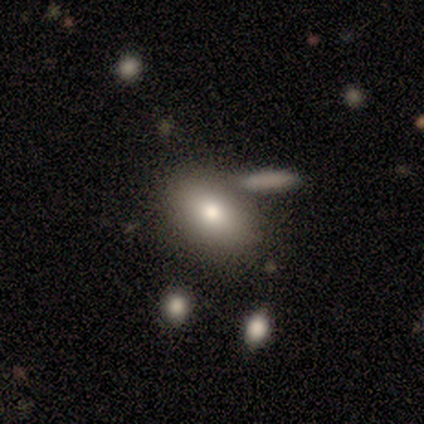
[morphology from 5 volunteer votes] This is marginally a smooth galaxy (40%, tied with featured or disk). How rounded: clearly in between (100%). Merging: possibly merger (50%).